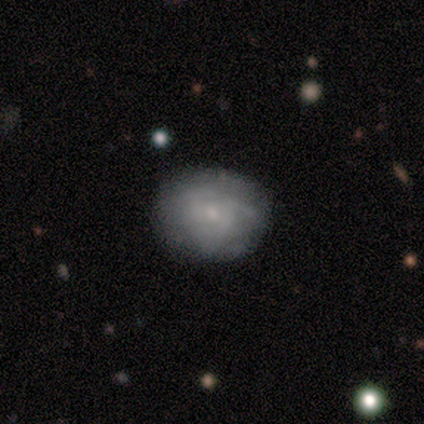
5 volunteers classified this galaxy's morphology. This appears to be a featured or disk galaxy (60%) with a weak bar (67%), 3 (67%) medium (67%) spiral arms (100%) and a small central bulge (67%). Merging: none (60%).